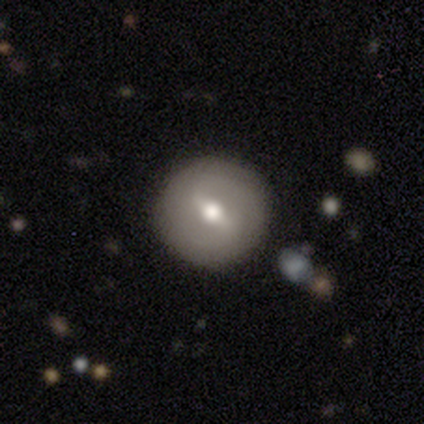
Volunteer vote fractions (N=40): A featured or disk galaxy (50%) with a strong bar (53%), 2 (50%) medium (38%, tied with loose) spiral arms (53%) and a moderate central bulge (80%). Merging: none (85%).